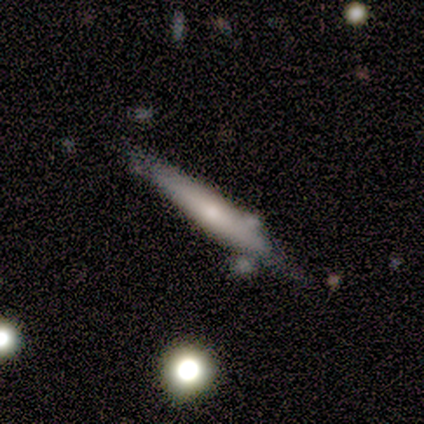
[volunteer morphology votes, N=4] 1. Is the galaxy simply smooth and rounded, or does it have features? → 50% smooth (tied), 50% featured or disk (tied), 0% star or artifact.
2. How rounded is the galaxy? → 100% cigar-shaped, 0% round, 0% in between.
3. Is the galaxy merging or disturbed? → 50% none (tied), 50% minor disturbance (tied), 0% major disturbance, 0% merger.